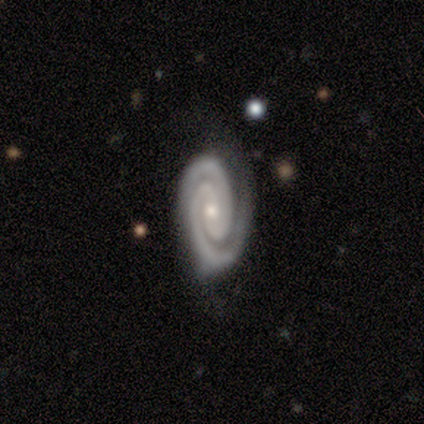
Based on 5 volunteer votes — Morphology: type=featured or disk (80%); edge-on=no (100%); bar=no (50%); spiral arms=yes (100%); winding=tight (100%); arm count=2 (100%); bulge=small (50%); merging=none (50%).